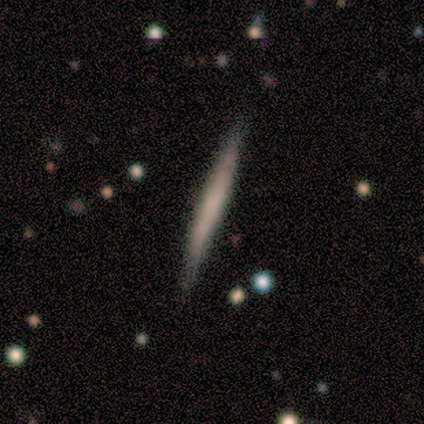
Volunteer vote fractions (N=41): A featured or disk galaxy (51%) viewed edge-on (100%) with no central bulge (90%).

Vote fractions:
- Smooth or featured? featured or disk: 51% / smooth: 41% / star or artifact: 7%
- Edge-on disk? yes: 100% / no: 0%
- Edge-on bulge? none: 90% / boxy: 5% / rounded: 5%
- Merging? none: 76% / minor disturbance: 24% / major disturbance: 0% / merger: 0%